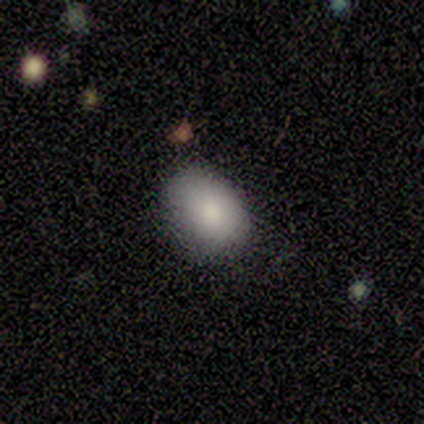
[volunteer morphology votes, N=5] This appears to be a smooth galaxy with no disk features (80%) that is in between round and cigar-shaped (75%). Merging: none (75%).